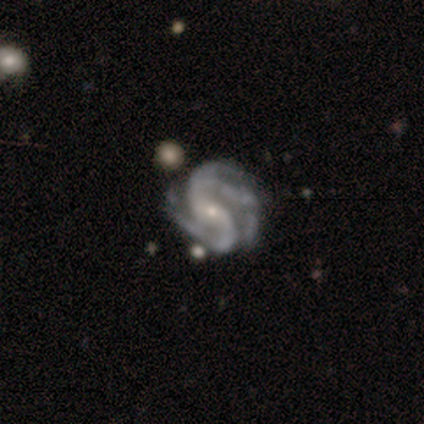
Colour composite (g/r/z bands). It shows a featured or disk galaxy (95%) with no bar (47%), 3 (50%) tight (42%, tied with medium) spiral arms (100%) and a small central bulge (74%). Merging: none (34%, tied with minor disturbance).